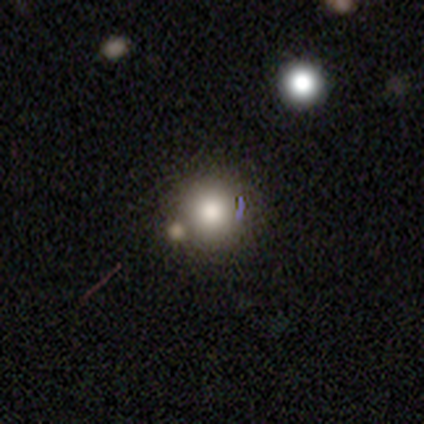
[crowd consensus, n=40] Smooth or featured?
  - smooth: 70% *
  - featured or disk: 20%
  - star or artifact: 10%
How rounded?
  - round: 100% *
  - in between: 0%
  - cigar-shaped: 0%
Merging?
  - merger: 42% *
  - none: 36%
  - minor disturbance: 8%
  - major disturbance: 6%